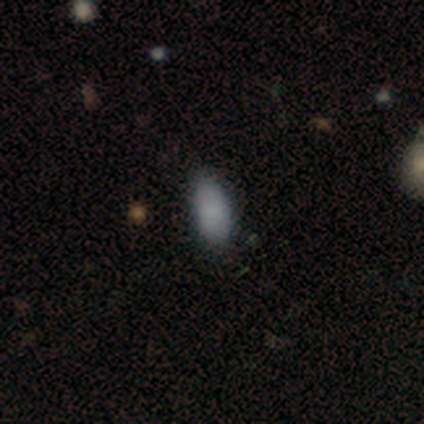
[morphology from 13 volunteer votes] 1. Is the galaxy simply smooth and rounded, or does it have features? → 92% smooth, 8% star or artifact, 0% featured or disk.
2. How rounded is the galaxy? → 92% in between, 8% round, 0% cigar-shaped.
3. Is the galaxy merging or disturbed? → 83% none, 17% minor disturbance, 0% major disturbance, 0% merger.